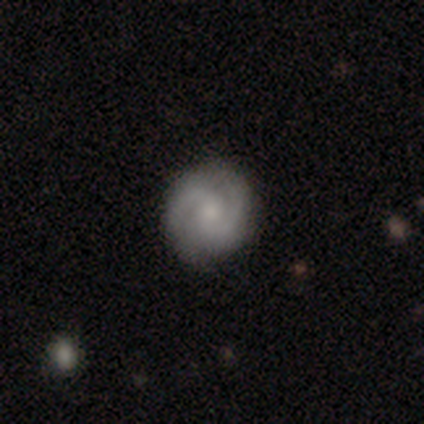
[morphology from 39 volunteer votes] Overall: featured or disk (77%). Edge-on disk: no (97%). Bar: no (48%; weak 45%). Spiral arms: yes (93%). Spiral arm count: 2 (89%). Spiral winding: tight (48%; medium 41%). Bulge size: small (48%; moderate 31%). Merging: none (89%).